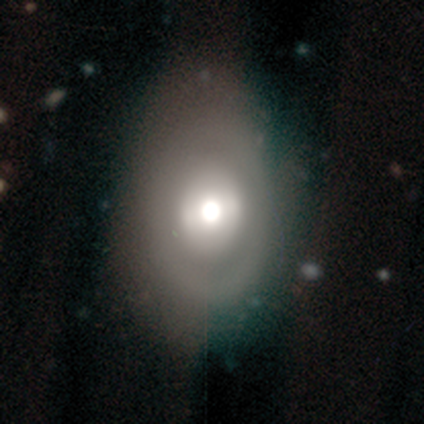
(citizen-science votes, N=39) Smooth or featured? smooth (49%)
How rounded? in between (68%)
Merging? none (45%)